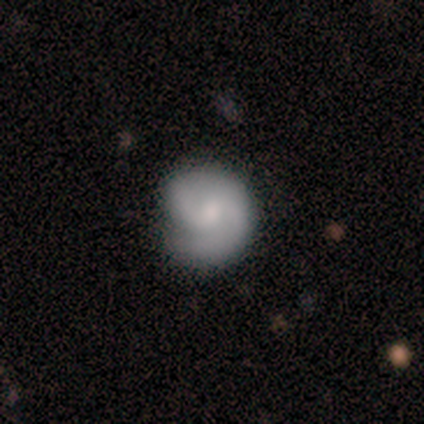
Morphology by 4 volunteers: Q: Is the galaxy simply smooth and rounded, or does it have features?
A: smooth — 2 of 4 (50%, tied with featured or disk).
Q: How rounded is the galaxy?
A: round — 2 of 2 (100%).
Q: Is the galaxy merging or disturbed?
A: none — 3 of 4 (75%).